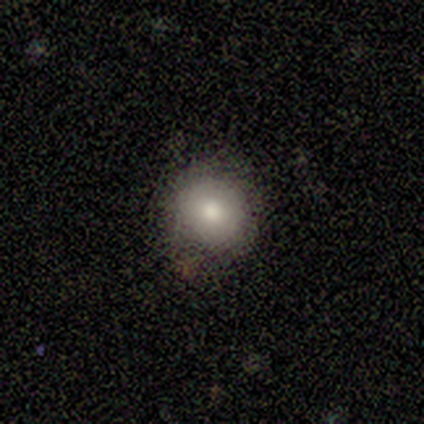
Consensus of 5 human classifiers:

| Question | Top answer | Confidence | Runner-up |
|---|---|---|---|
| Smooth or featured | smooth | 80% | star or artifact (20%) |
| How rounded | round | 100% | — |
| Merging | none | 75% | minor disturbance (25%) |